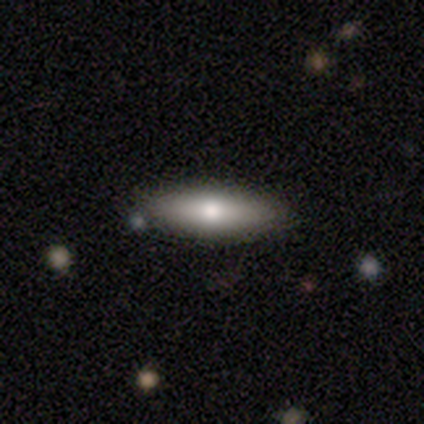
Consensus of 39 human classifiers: smooth_or_featured: smooth (p=0.82) [alt: featured or disk p=0.18]
how_rounded: in between (p=0.47) [tied with: cigar-shaped p=0.47]
merging: none (p=0.49) [alt: merger p=0.13]